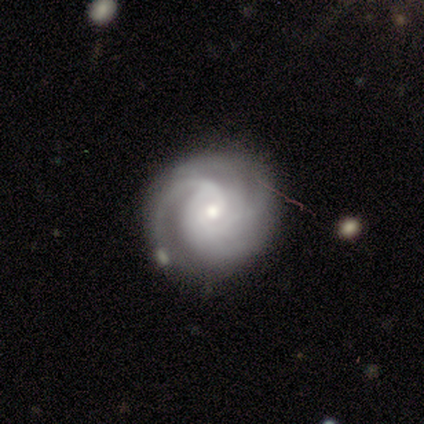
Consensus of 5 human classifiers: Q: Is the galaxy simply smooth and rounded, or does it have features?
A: featured or disk — 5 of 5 (100%).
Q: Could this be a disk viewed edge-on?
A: no — 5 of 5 (100%).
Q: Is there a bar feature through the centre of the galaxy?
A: weak — 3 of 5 (60%).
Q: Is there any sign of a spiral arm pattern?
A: yes — 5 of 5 (100%).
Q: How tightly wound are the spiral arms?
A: medium — 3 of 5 (60%).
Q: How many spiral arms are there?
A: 3 — 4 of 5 (80%).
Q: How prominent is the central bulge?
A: moderate — 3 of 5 (60%).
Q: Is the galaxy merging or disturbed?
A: none — 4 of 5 (80%).